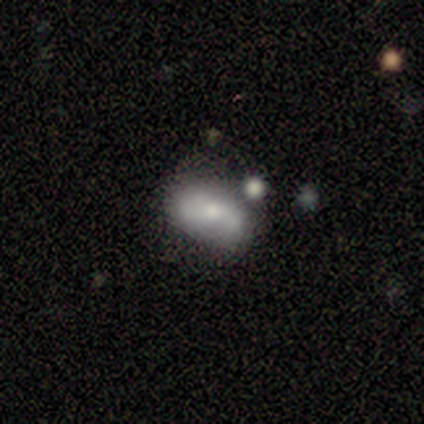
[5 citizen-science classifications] Smooth or featured: smooth — 60% (featured or disk — 40%)
How rounded: in between — 100%
Merging: none — 80% (major disturbance — 20%)